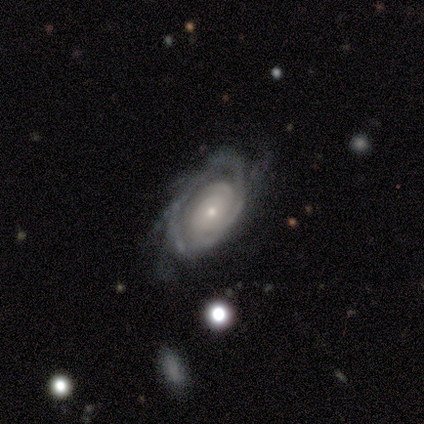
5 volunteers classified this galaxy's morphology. This is clearly a featured or disk galaxy (80%). It is clearly not viewed edge-on (100%). Bar: likely no (75%). Spiral arm pattern: clearly yes (100%). Spiral arm count: marginally 2 (25%, tied with 3, more than 4 and can't tell). Spiral winding: likely tight (75%). Central bulge: likely moderate (75%). Merging: likely minor disturbance (60%).